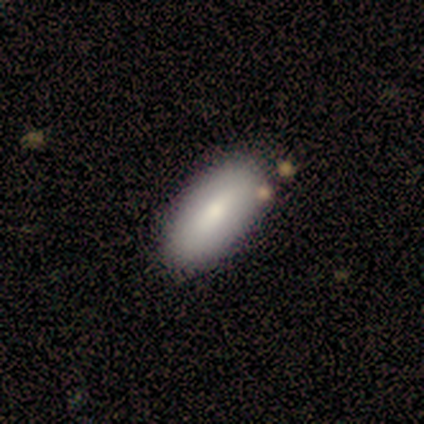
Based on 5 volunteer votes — This appears to be a smooth galaxy with no disk features (80%) that is in between round and cigar-shaped (100%). Merging: none (80%).